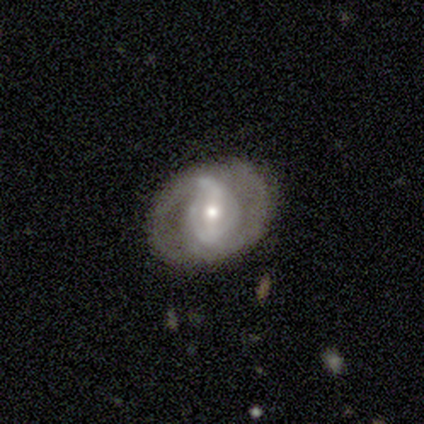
featured or disk 85%, smooth 8%, star or artifact 8%. Down the decision tree: edge-on disk — no (97%); bar — weak (36%); spiral arms — yes (76%); spiral arm count — 2 (48%); spiral winding — tight (40%); bulge size — moderate (45%); merging — none (70%).